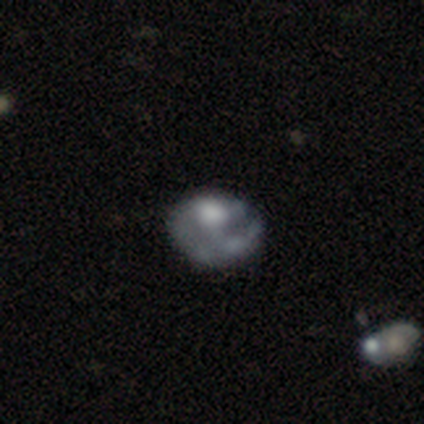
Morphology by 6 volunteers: Smooth or featured? 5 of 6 (83%) said featured or disk. Edge-on disk? 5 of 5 (100%) said no. Bar? 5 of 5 (100%) said no. Spiral arms? 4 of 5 (80%) said no. Bulge size? 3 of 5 (60%) said moderate. Merging? 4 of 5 (80%) said major disturbance.